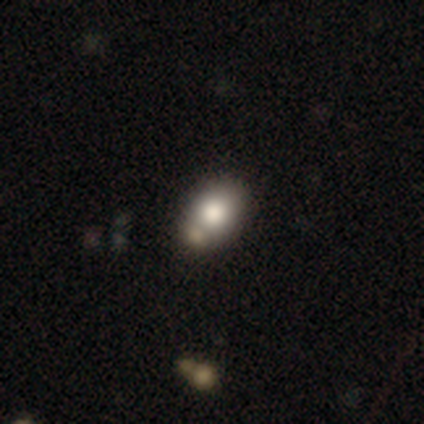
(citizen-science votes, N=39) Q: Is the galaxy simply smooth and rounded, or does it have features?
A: smooth — 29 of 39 (74%).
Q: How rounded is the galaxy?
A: in between — 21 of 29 (72%).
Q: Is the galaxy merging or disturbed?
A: none — 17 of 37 (46%).